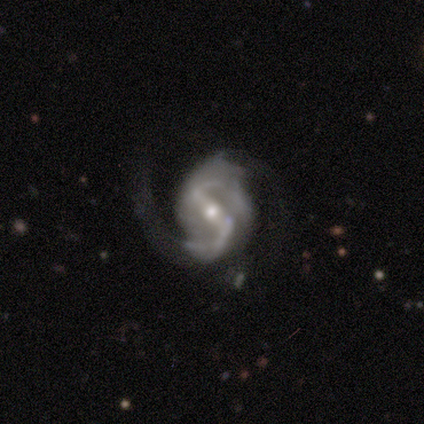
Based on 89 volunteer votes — Q: Smooth or featured?
A: featured or disk (91%); runner-up: star or artifact (7%)
Q: Edge-on disk?
A: no (99%); runner-up: yes (1%)
Q: Bar?
A: strong (62%); runner-up: weak (25%)
Q: Spiral arms?
A: yes (94%); runner-up: no (6%)
Q: Spiral winding?
A: medium (59%); runner-up: loose (36%)
Q: Spiral arm count?
A: 2 (97%); runner-up: can't tell (3%)
Q: Bulge size?
A: moderate (50%); runner-up: small (42%)
Q: Merging?
A: none (49%); runner-up: minor disturbance (27%)